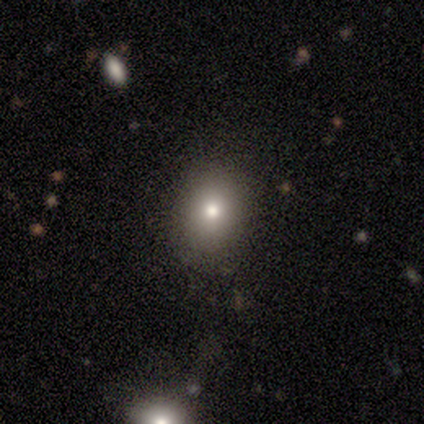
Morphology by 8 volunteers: A smooth galaxy with no disk features (50%) that is round (50%, tied with in between). Merging: none (86%).